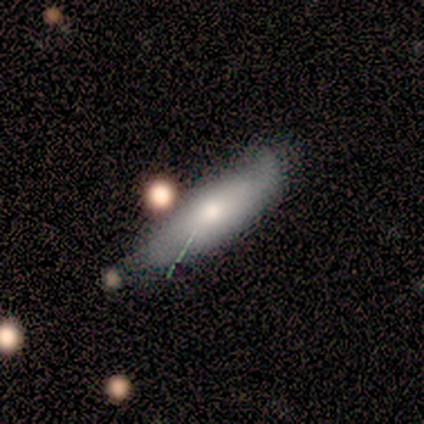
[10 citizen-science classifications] smooth 70%, featured or disk 30%, star or artifact 0%. Down the decision tree: how rounded — in between (57%); merging — none (50%).